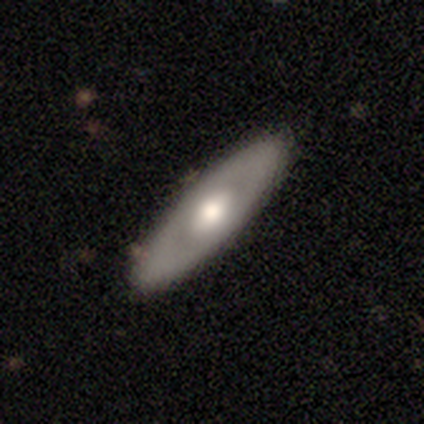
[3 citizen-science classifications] Morphology: type=featured or disk (67%); edge-on=no (100%); bar=weak (50%, tied with no); spiral arms=no (100%); bulge=large (50%, tied with moderate); merging=none (67%).